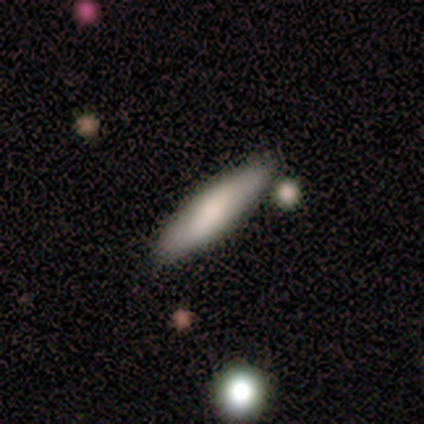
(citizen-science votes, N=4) Morphology: type=smooth (75%); roundness=cigar-shaped (67%); merging=none (50%, tied with merger).